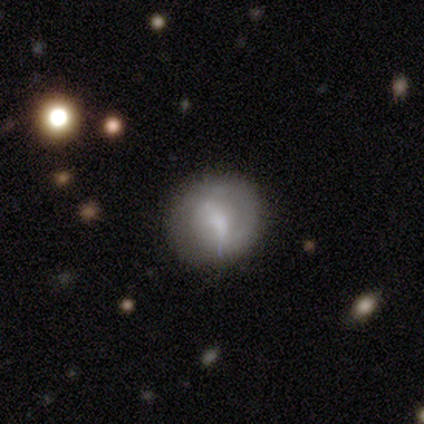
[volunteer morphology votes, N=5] This is likely a featured or disk galaxy (60%). It is clearly not viewed edge-on (100%). Bar: clearly weak (100%). Spiral arm pattern: likely no (67%). Central bulge: marginally large (33%, tied with moderate and none). Merging: clearly none (80%).